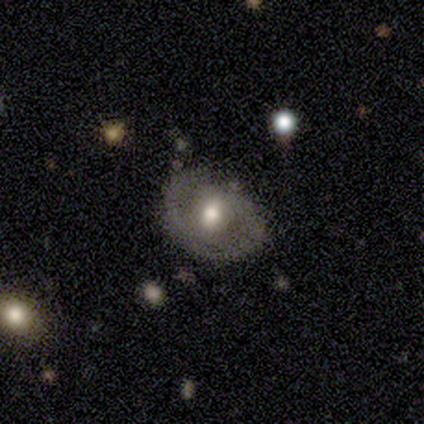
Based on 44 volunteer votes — A featured or disk galaxy (52%) with a weak bar (53%), 2 (54%) medium (54%) spiral arms (68%) and a moderate central bulge (68%).

Vote fractions:
- Smooth or featured? featured or disk: 52% / smooth: 43% / star or artifact: 5%
- Edge-on disk? no: 83% / yes: 17%
- Bar? weak: 53% / no: 42% / strong: 5%
- Spiral arms? yes: 68% / no: 32%
- Spiral winding? medium: 54% / tight: 31% / loose: 15%
- Spiral arm count? 2: 54% / 1: 38% / can't tell: 8% / 3: 0% / 4: 0% / more than 4: 0%
- Bulge size? moderate: 68% / large: 16% / small: 16% / dominant: 0% / none: 0%
- Merging? none: 67% / minor disturbance: 17% / major disturbance: 12% / merger: 5%